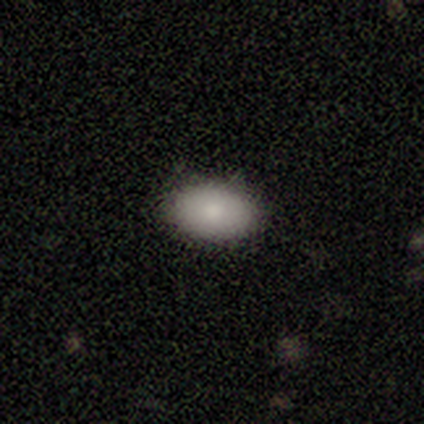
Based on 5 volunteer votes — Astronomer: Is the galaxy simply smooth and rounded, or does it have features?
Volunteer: smooth — 100%.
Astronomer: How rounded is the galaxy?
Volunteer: in between — 100%.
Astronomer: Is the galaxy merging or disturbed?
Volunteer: none — 100%.